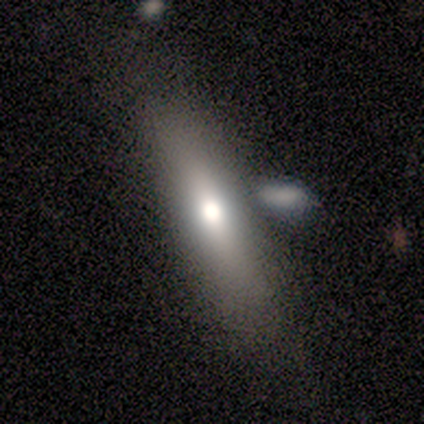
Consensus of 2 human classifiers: Smooth or featured? 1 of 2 (50%, tied with featured or disk) said smooth. How rounded? 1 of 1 (100%) said in between. Merging? 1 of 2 (50%, tied with merger) said none.